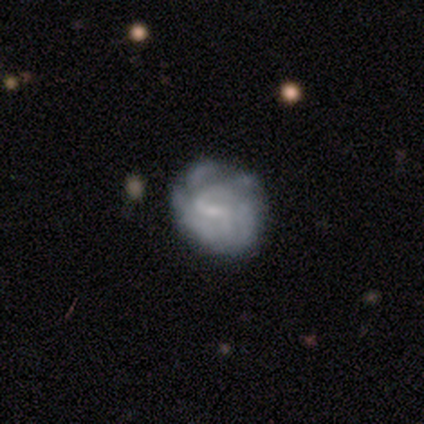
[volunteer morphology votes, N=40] This appears to be a featured or disk galaxy (82%) with a weak bar (55%), medium (52%) spiral arms (70%) and a small central bulge (52%). Merging: none (41%).